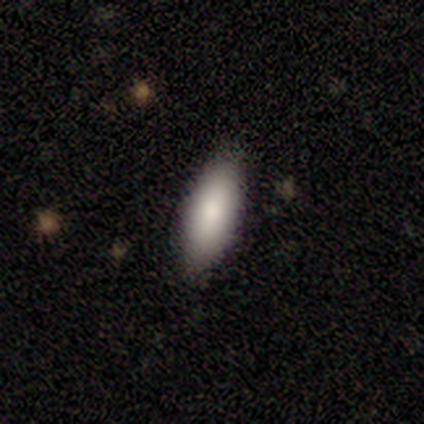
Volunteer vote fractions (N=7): smooth_or_featured: smooth (p=1.00)
how_rounded: in between (p=0.86) [alt: cigar-shaped p=0.14]
merging: none (p=1.00)